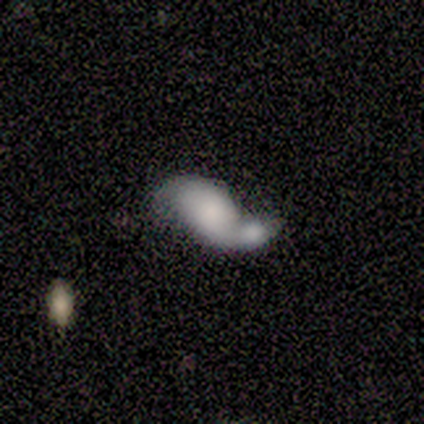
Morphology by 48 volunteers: Smooth or featured: featured or disk — 48% (smooth — 46%)
Edge-on disk: no — 96% (yes — 4%)
Bar: no — 86% (weak — 9%)
Spiral arms: yes — 59% (no — 41%)
Spiral winding: loose — 62% (medium — 23%)
Spiral arm count: 2 — 85% (1 — 8%)
Bulge size: small — 27% (large — 23%)
Merging: merger — 67% (minor disturbance — 16%)